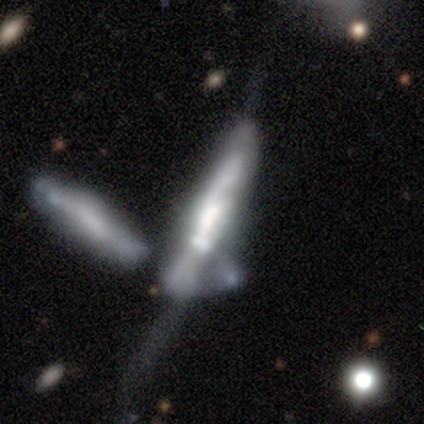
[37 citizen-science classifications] Overall: featured or disk (73%). Edge-on disk: yes (56%; no 44%). Edge-on bulge: none (53%; boxy 33%). Merging: merger (48%; major disturbance 24%).